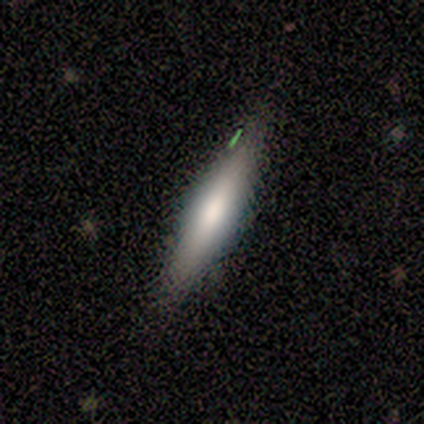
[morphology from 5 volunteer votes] A featured or disk galaxy (60%) viewed edge-on (67%) with a rounded central bulge (100%).

Vote fractions:
- Smooth or featured? featured or disk: 60% / smooth: 40% / star or artifact: 0%
- Edge-on disk? yes: 67% / no: 33%
- Edge-on bulge? rounded: 100% / boxy: 0% / none: 0%
- Merging? none: 60% / minor disturbance: 40% / major disturbance: 0% / merger: 0%